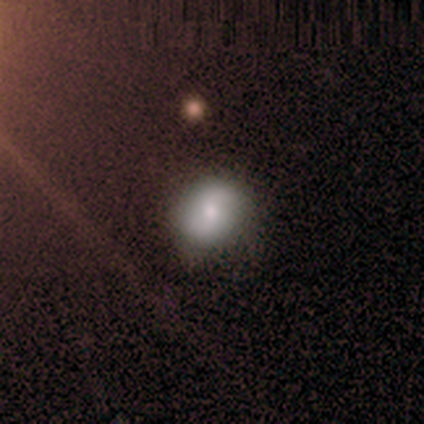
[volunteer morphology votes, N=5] Smooth or featured? 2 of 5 (40%, tied with star or artifact) said smooth. How rounded? 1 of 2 (50%, tied with in between) said round. Merging? 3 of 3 (100%) said none.